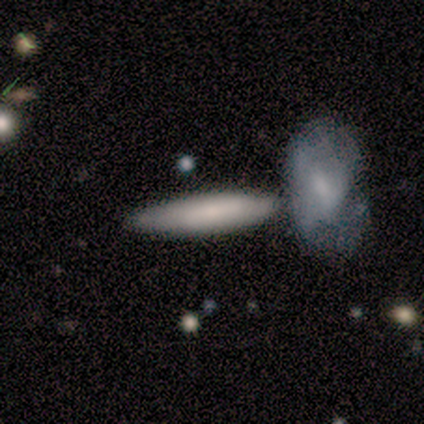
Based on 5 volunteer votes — smooth_or_featured: smooth (p=0.80) [alt: featured or disk p=0.20]
how_rounded: cigar-shaped (p=0.75) [alt: in between p=0.25]
merging: none (p=0.60) [alt: merger p=0.40]